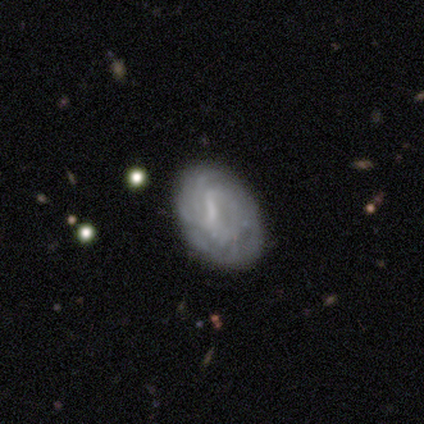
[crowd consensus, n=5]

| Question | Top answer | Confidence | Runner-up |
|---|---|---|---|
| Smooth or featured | featured or disk | 60% | smooth (40%) |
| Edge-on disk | no | 100% | — |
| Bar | strong | 33% | tied: weak (33%), no (33%) |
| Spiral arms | yes | 100% | — |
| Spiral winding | tight | 67% | loose (33%) |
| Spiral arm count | can't tell | 100% | — |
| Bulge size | small | 67% | none (33%) |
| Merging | none | 60% | minor disturbance (40%) |